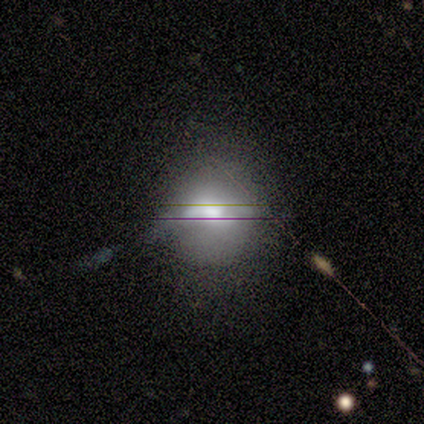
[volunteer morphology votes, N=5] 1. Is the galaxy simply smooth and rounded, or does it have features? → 80% smooth, 20% featured or disk, 0% star or artifact.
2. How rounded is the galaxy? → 75% round, 25% in between, 0% cigar-shaped.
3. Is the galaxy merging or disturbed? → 40% minor disturbance, 20% none, 20% major disturbance, 20% merger.